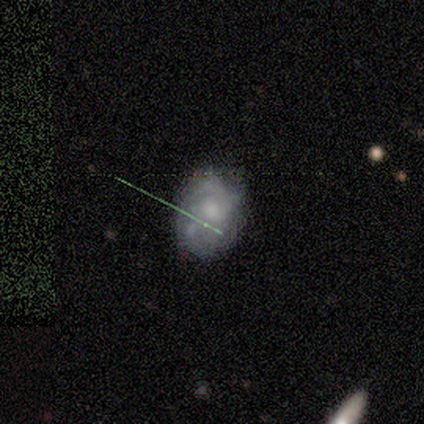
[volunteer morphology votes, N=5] A featured or disk galaxy (80%) with a weak bar (50%, tied with no), 3 (67%) tight (67%) spiral arms (75%) and a moderate central bulge (100%). Merging: none (100%).